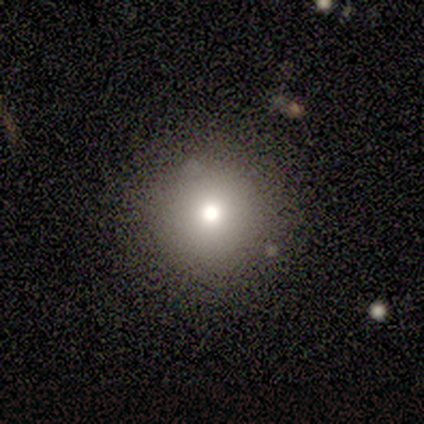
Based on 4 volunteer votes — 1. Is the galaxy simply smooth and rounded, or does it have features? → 75% smooth, 25% featured or disk, 0% star or artifact.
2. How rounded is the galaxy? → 100% round, 0% in between, 0% cigar-shaped.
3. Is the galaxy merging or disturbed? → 100% none, 0% minor disturbance, 0% major disturbance, 0% merger.